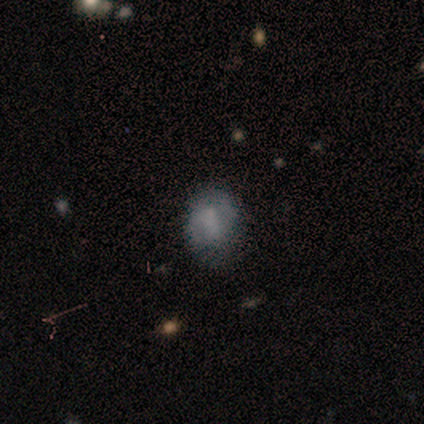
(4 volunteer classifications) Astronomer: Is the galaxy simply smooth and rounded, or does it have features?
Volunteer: smooth — 75%.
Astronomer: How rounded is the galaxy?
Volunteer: round — 33%, tied with in between and cigar-shaped at 33%.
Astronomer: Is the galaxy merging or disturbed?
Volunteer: none — 75%.